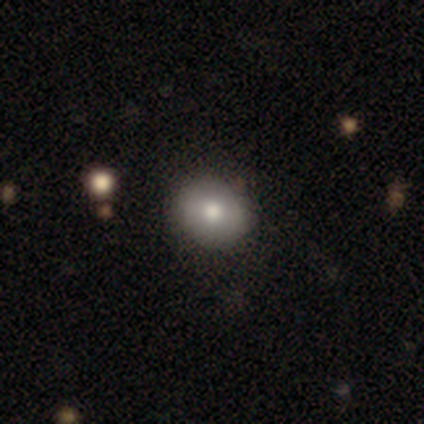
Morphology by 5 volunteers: smooth-or-featured: featured or disk: 80% | smooth: 20% | star or artifact: 0%
  disk-edge-on: no: 100% | yes: 0%
    bar: no: 75% | weak: 25% | strong: 0%
    has-spiral-arms: no: 100% | yes: 0%
    bulge-size: moderate: 50% | large: 25% | small: 25% | dominant: 0% | none: 0%
  merging: none: 100% | minor disturbance: 0% | major disturbance: 0% | merger: 0%